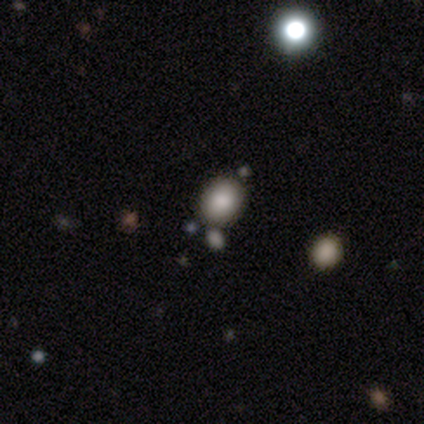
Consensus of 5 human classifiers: Morphology: type=smooth (60%); roundness=in between (67%); merging=none (100%).